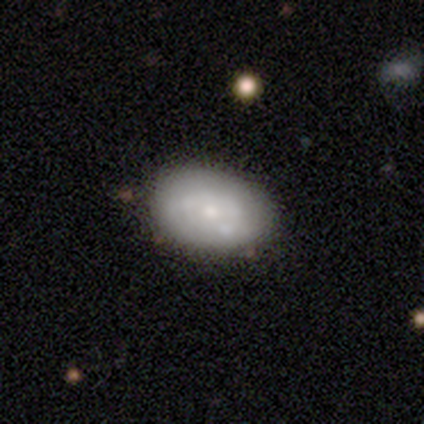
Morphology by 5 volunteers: smooth 60%, featured or disk 40%, star or artifact 0%. Down the decision tree: how rounded — round (67%); merging — none (100%).